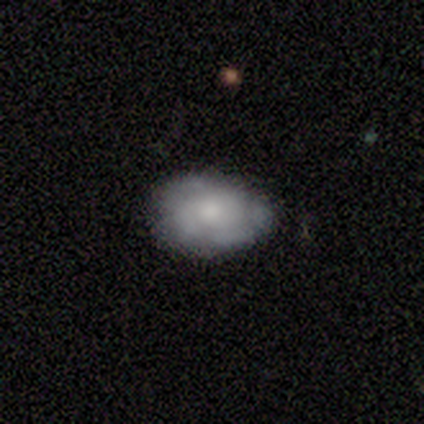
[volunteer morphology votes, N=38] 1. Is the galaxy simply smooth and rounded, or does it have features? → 50% featured or disk, 47% smooth, 3% star or artifact.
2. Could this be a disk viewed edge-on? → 95% no, 5% yes.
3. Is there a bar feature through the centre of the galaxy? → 83% no, 11% weak, 6% strong.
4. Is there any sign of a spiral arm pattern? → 61% no, 39% yes.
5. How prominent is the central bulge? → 39% small, 28% large, 28% moderate, 6% none, 0% dominant.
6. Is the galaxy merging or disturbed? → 54% none, 38% minor disturbance, 8% major disturbance, 0% merger.